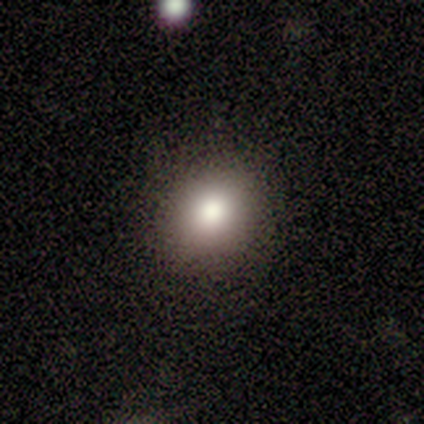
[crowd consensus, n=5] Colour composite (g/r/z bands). It shows a smooth galaxy with no disk features (100%) that is round (100%). Merging: none (80%).